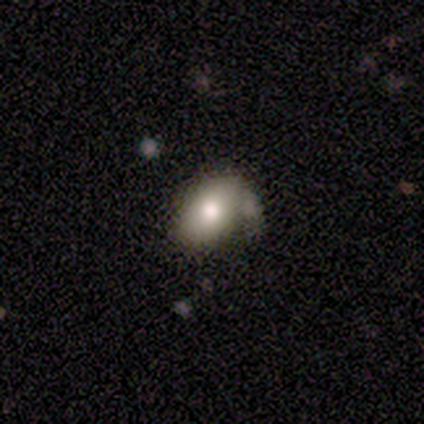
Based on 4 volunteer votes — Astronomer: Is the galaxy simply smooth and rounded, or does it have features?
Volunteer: smooth — 75%.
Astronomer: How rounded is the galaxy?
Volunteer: in between — 100%.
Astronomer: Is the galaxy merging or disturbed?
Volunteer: none — 25%, tied with minor disturbance, major disturbance and merger at 25%.